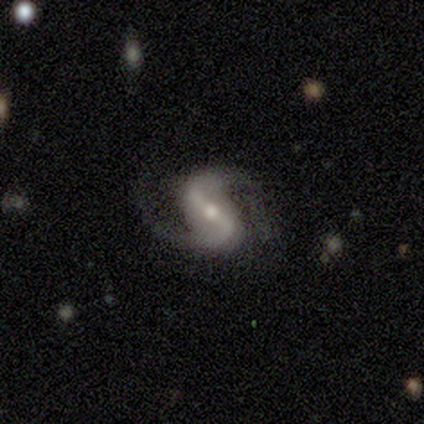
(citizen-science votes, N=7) smooth_or_featured: featured or disk (p=1.00)
disk_edge_on: no (p=1.00)
bar: strong (p=0.71) [alt: weak p=0.14]
has_spiral_arms: yes (p=1.00)
spiral_winding: medium (p=0.57) [alt: loose p=0.29]
spiral_arm_count: 2 (p=1.00)
bulge_size: moderate (p=0.71) [alt: small p=0.29]
merging: none (p=1.00)